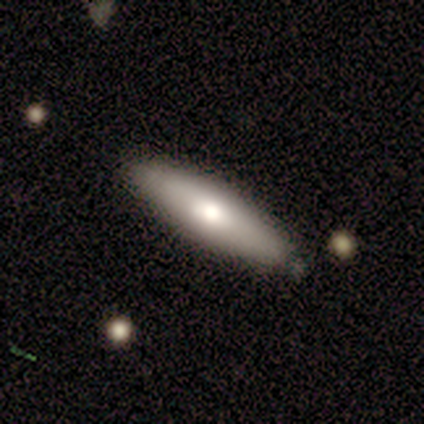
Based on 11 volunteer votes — Volunteers were most divided on "how rounded": cigar-shaped: 78%, in between: 22%, round: 0%. More confident: merging — none (90%); smooth or featured — smooth (82%).